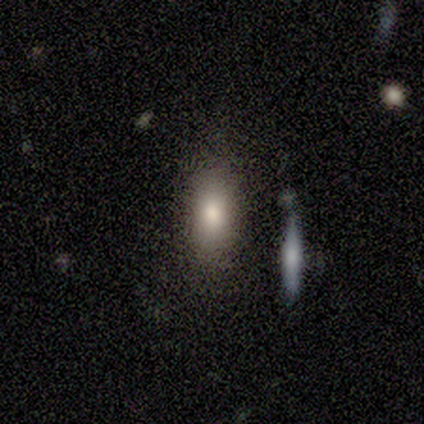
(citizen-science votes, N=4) Smooth or featured?
  - smooth: 100% *
  - featured or disk: 0%
  - star or artifact: 0%
How rounded?
  - in between: 75% *
  - cigar-shaped: 25%
  - round: 0%
Merging?
  - none: 75% *
  - merger: 25%
  - minor disturbance: 0%
  - major disturbance: 0%